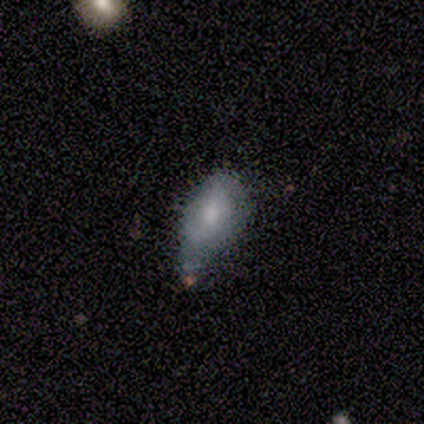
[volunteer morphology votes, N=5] This is likely a smooth galaxy (60%). How rounded: likely in between (67%). Merging: likely minor disturbance (60%).